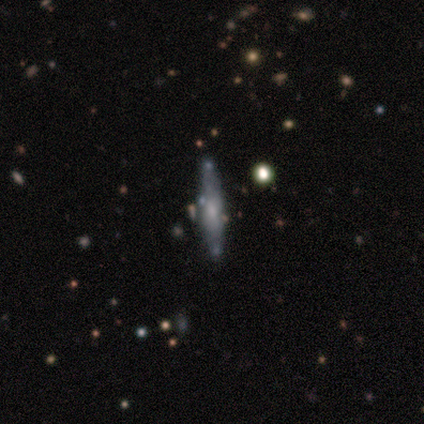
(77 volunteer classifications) Overall: featured or disk (65%; smooth 32%). Edge-on disk: yes (76%). Edge-on bulge: rounded (61%; boxy 29%). Merging: none (39%; minor disturbance 7%).